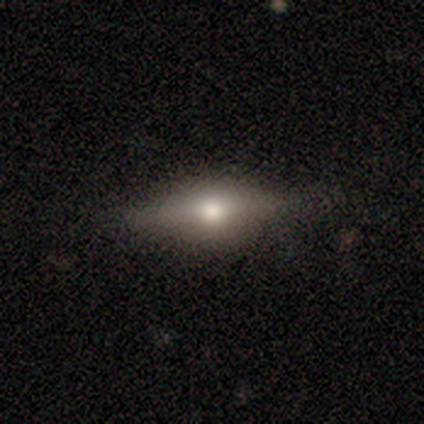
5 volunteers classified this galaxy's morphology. This is likely a smooth galaxy (60%). How rounded: likely in between (67%). Merging: clearly none (80%).